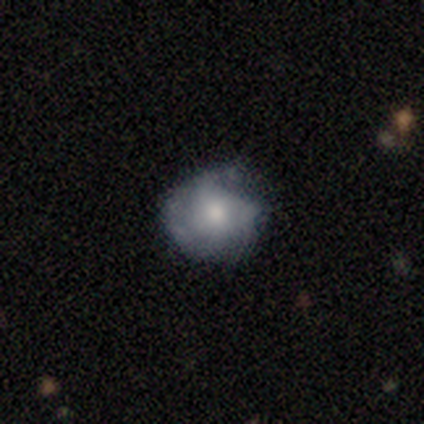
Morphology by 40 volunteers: Volunteers were most divided on "merging": none: 62%, minor disturbance: 33%, major disturbance: 5%, merger: 0%. More confident: how rounded — round (79%); smooth or featured — smooth (70%).